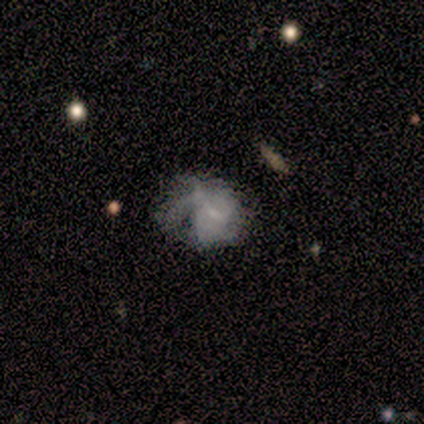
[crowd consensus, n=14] Morphology: type=featured or disk (64%); edge-on=no (100%); bar=no (78%); spiral arms=yes (67%); winding=tight (50%); arm count=1 (50%, tied with can't tell); bulge=small (56%); merging=none (54%).